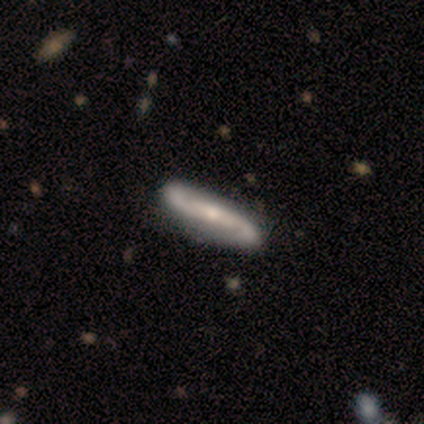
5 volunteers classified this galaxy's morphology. Smooth or featured: featured or disk — 80% (star or artifact — 20%)
Edge-on disk: yes — 50% (tied with no — 50%)
Edge-on bulge: rounded — 100%
Merging: none — 50% (minor disturbance — 25%)